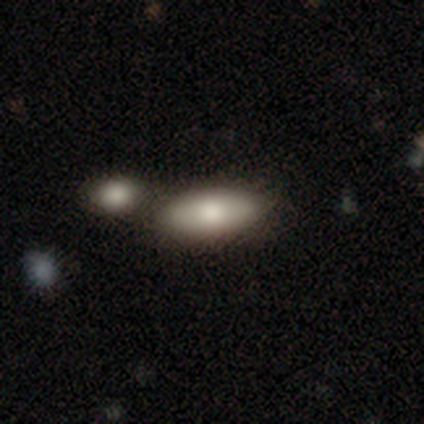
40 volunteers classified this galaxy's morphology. Overall: smooth (88%). How rounded: in between (91%). Merging: merger (41%; none 38%).